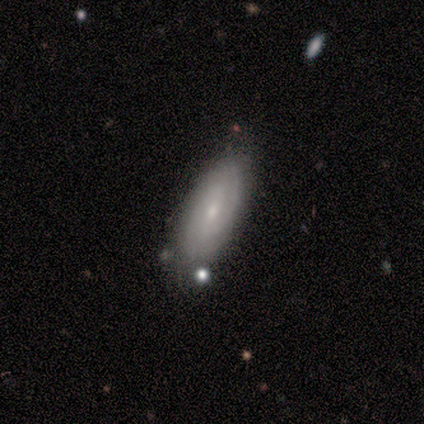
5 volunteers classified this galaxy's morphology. This appears to be a featured or disk galaxy (100%) with no bar (75%), 2 (100%) tight (33%, tied with medium and loose) spiral arms (75%) and a small central bulge (100%). Merging: none (80%).